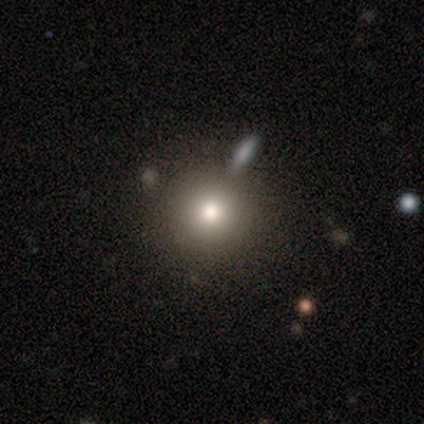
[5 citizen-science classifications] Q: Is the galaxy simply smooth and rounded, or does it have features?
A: smooth — 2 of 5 (40%, tied with featured or disk).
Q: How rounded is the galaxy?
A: round — 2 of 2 (100%).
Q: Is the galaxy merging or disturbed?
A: none — 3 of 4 (75%).